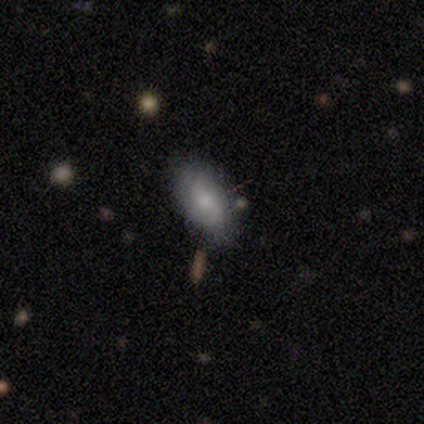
Q: Smooth or featured?
A: featured or disk (60%); runner-up: smooth (20%)
Q: Edge-on disk?
A: no (100%)
Q: Bar?
A: weak (67%); runner-up: no (33%)
Q: Spiral arms?
A: yes (100%)
Q: Spiral winding?
A: loose (67%); runner-up: tight (33%)
Q: Spiral arm count?
A: 1 (33%); tied with: 2 (33%); can't tell (33%)
Q: Bulge size?
A: large (33%); tied with: moderate (33%); small (33%)
Q: Merging?
A: none (75%); runner-up: major disturbance (25%)